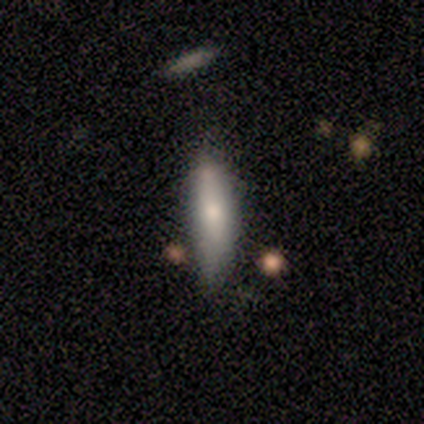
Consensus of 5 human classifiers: A smooth galaxy with no disk features (80%) that is in between round and cigar-shaped (50%, tied with cigar-shaped). Merging: none (60%).